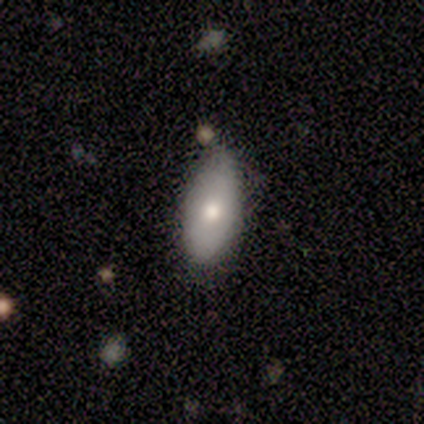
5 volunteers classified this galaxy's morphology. Volunteers were most divided on "how rounded": round: 67%, in between: 33%, cigar-shaped: 0%. More confident: merging — none (75%); smooth or featured — smooth (60%).